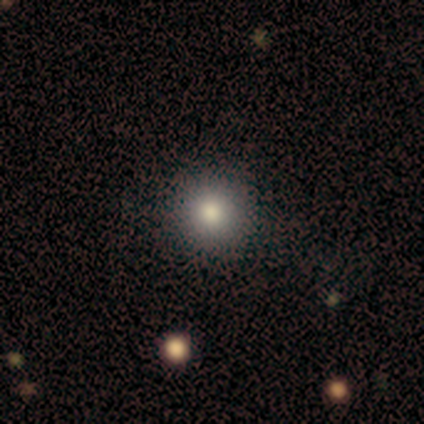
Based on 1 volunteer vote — Smooth or featured? smooth (100%)
How rounded? round (100%)
Merging? none (100%)